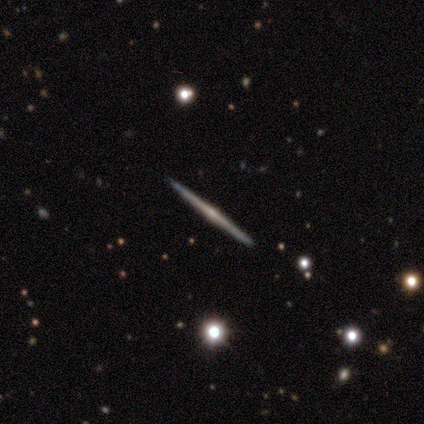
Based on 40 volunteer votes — smooth-or-featured: featured or disk: 90% | smooth: 10% | star or artifact: 0%
  disk-edge-on: yes: 100% | no: 0%
    edge-on-bulge: rounded: 72% | none: 25% | boxy: 3%
  merging: none: 95% | minor disturbance: 5% | major disturbance: 0% | merger: 0%